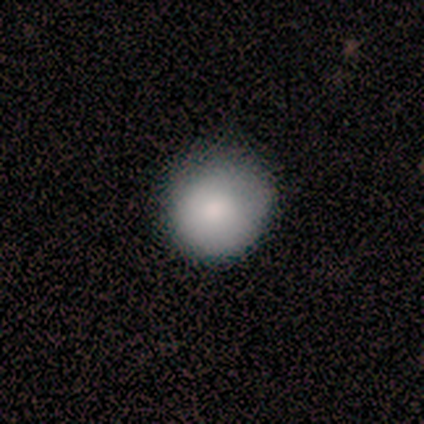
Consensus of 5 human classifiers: smooth 100%, featured or disk 0%, star or artifact 0%. Down the decision tree: how rounded — round (100%); merging — none (60%).